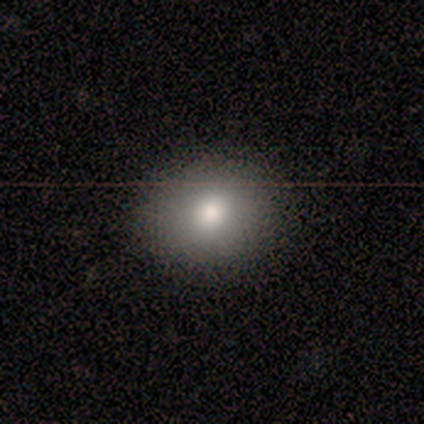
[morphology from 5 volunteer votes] This appears to be a smooth galaxy with no disk features (80%) that is round (75%). Merging: none (100%).